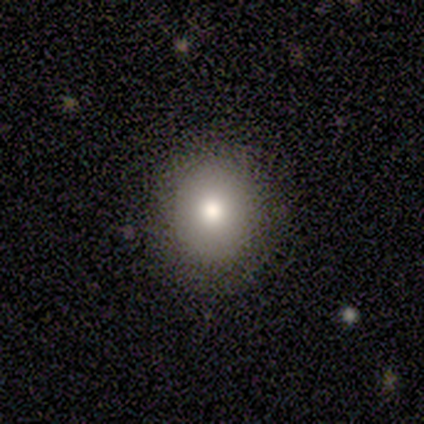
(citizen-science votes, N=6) This is likely a smooth galaxy (67%). How rounded: clearly round (100%). Merging: clearly none (100%).